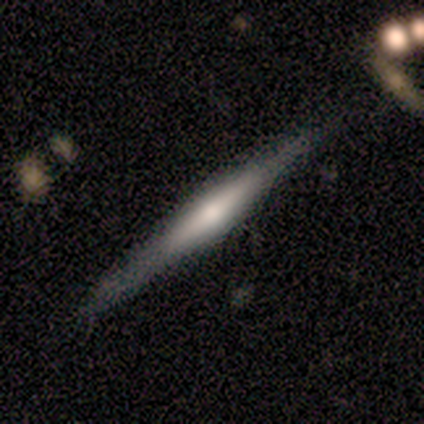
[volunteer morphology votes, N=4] smooth-or-featured: featured or disk: 75% | smooth: 25% | star or artifact: 0%
  disk-edge-on: yes: 100% | no: 0%
    edge-on-bulge: none: 67% | rounded: 33% | boxy: 0%
  merging: none: 75% | minor disturbance: 25% | major disturbance: 0% | merger: 0%